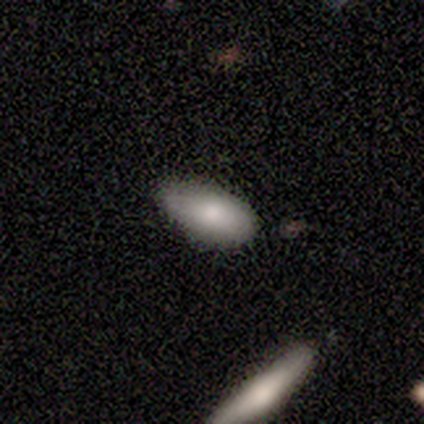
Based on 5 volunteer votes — Smooth or featured? 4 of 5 (80%) said smooth. How rounded? 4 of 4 (100%) said in between. Merging? 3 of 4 (75%) said none.